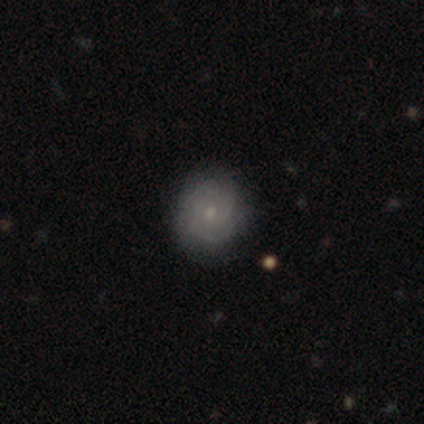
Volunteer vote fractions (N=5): This is clearly a featured or disk galaxy (80%). It is clearly not viewed edge-on (100%). Bar: likely no (75%). Spiral arm pattern: clearly yes (100%). Spiral arm count: likely 3 (75%). Spiral winding: likely tight (75%). Central bulge: likely moderate (75%). Merging: likely none (60%).